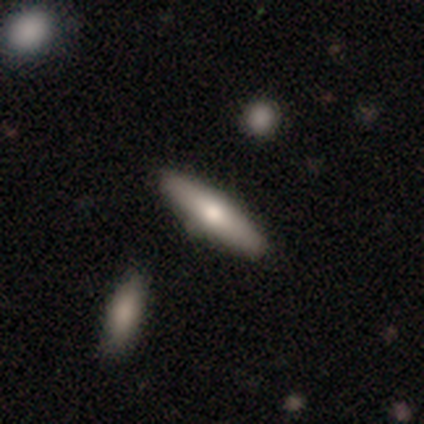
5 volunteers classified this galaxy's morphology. Volunteers were most divided on "smooth or featured": smooth: 80%, featured or disk: 20%, star or artifact: 0%. More confident: how rounded — in between (100%); merging — none (100%).